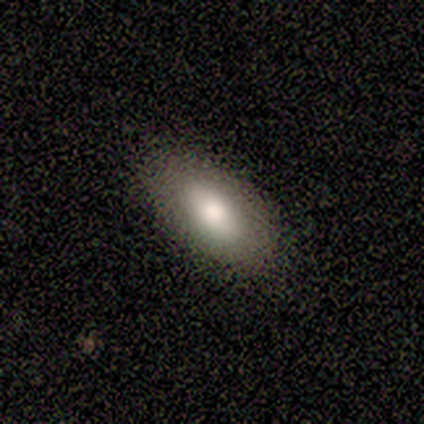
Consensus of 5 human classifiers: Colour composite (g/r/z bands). It shows a smooth galaxy with no disk features (60%) that is in between round and cigar-shaped (100%). Merging: none (100%).